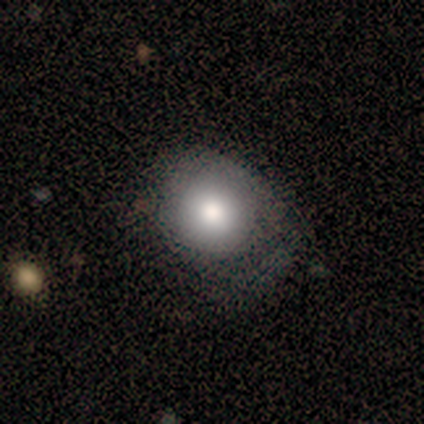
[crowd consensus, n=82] Smooth or featured? smooth (80%)
How rounded? round (80%)
Merging? none (47%)